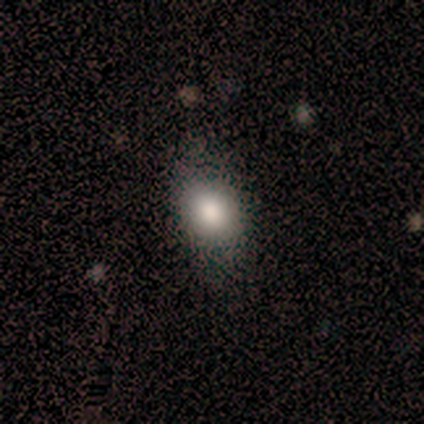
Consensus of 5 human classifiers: smooth_or_featured: smooth (p=0.80) [alt: star or artifact p=0.20]
how_rounded: in between (p=0.75) [alt: round p=0.25]
merging: none (p=0.75) [alt: minor disturbance p=0.25]